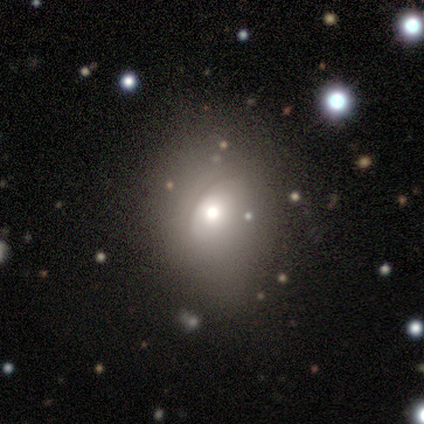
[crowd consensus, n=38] smooth-or-featured: smooth: 63% | featured or disk: 24% | star or artifact: 13%
  how-rounded: round: 54% | in between: 46% | cigar-shaped: 0%
  merging: none: 67% | minor disturbance: 33% | major disturbance: 0% | merger: 0%